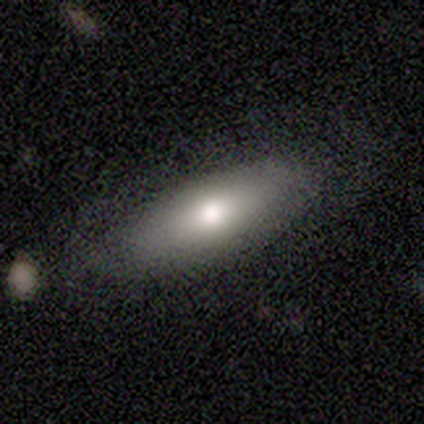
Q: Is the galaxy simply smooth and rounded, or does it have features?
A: smooth — 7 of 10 (70%).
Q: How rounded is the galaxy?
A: in between — 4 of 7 (57%).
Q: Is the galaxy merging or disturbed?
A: none — 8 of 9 (89%).